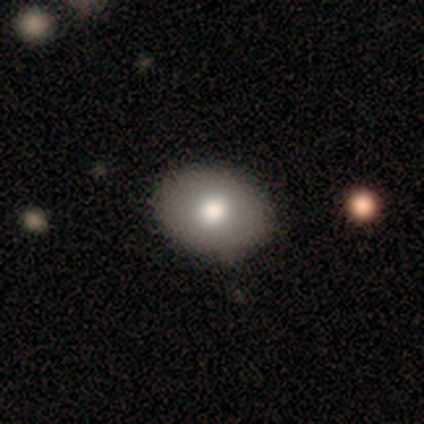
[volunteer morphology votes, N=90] smooth 81%, featured or disk 11%, star or artifact 8%. Down the decision tree: how rounded — in between (60%); merging — none (94%).